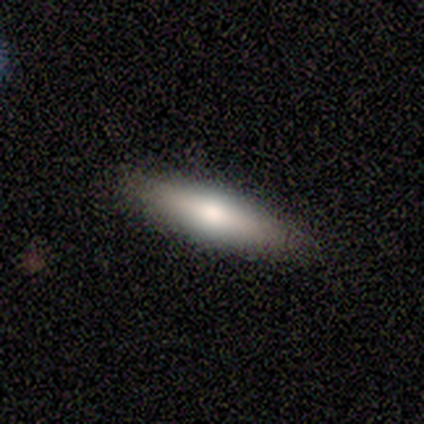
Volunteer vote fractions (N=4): A smooth galaxy with no disk features (75%) that is cigar-shaped (100%). Merging: none (100%).